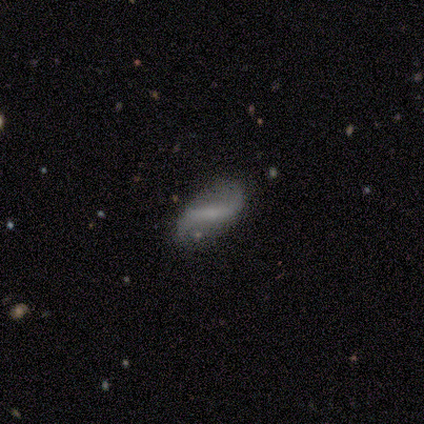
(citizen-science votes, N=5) Overall: featured or disk (100%). Edge-on disk: no (100%). Bar: strong (60%; weak 20%). Spiral arms: yes (100%). Spiral arm count: 2 (100%). Spiral winding: loose (60%; medium 40%). Bulge size: small (60%; moderate 20%). Merging: none (100%).